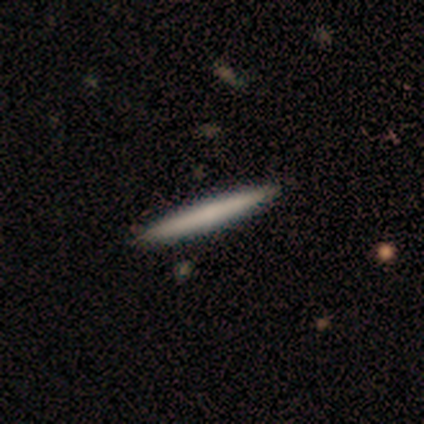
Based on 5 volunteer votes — Smooth or featured? smooth (60%)
How rounded? cigar-shaped (100%)
Merging? none (100%)